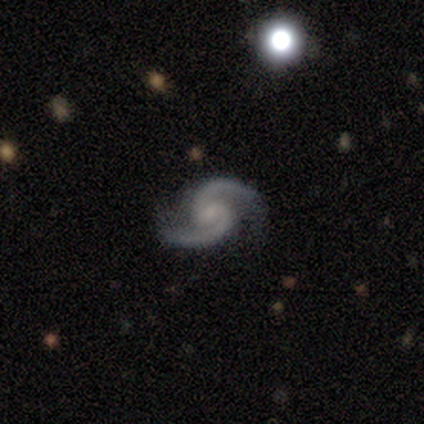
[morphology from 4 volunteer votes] This is likely a featured or disk galaxy (75%). It is clearly not viewed edge-on (100%). Bar: likely weak (67%). Spiral arm pattern: clearly yes (100%). Spiral arm count: clearly 2 (100%). Spiral winding: clearly medium (100%). Central bulge: likely small (67%). Merging: likely none (67%).